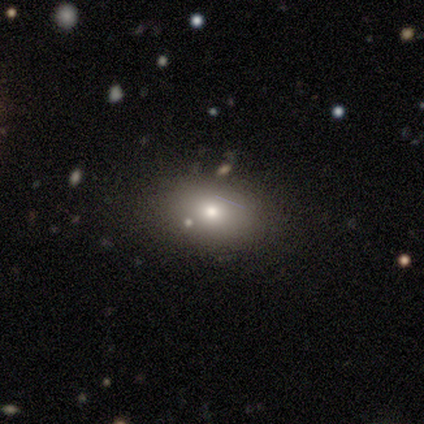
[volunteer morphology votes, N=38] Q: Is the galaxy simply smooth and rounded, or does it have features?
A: smooth — 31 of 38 (82%).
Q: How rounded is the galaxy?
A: in between — 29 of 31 (94%).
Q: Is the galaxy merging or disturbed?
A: none — 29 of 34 (85%).